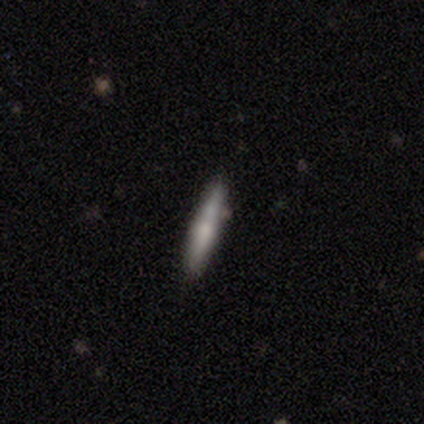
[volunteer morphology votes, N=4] smooth 50% (tied), featured or disk 50% (tied), star or artifact 0%. Down the decision tree: how rounded — cigar-shaped (100%); merging — none (100%).